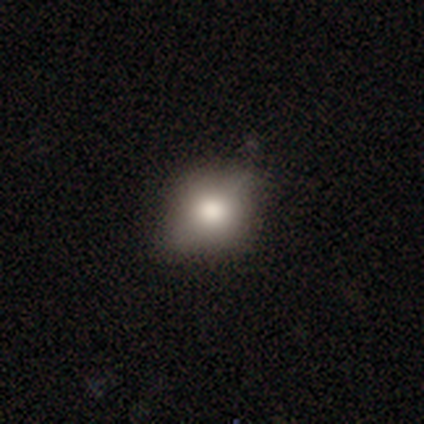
Q: Smooth or featured?
A: smooth (100%)
Q: How rounded?
A: round (50%); tied with: in between (50%)
Q: Merging?
A: none (50%); tied with: major disturbance (50%)